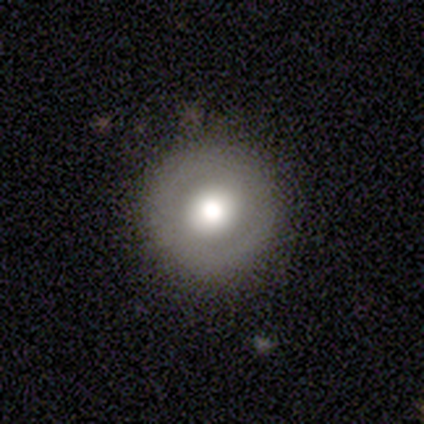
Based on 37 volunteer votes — Q: Smooth or featured?
A: featured or disk (51%); runner-up: smooth (32%)
Q: Edge-on disk?
A: no (89%); runner-up: yes (11%)
Q: Bar?
A: no (76%); runner-up: strong (12%)
Q: Spiral arms?
A: no (76%); runner-up: yes (24%)
Q: Bulge size?
A: large (41%); tied with: moderate (41%)
Q: Merging?
A: none (87%); runner-up: minor disturbance (10%)